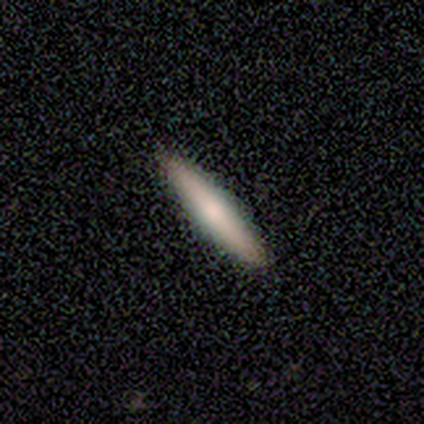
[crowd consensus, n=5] Smooth or featured?
  - smooth: 80% *
  - featured or disk: 20%
  - star or artifact: 0%
How rounded?
  - cigar-shaped: 100% *
  - round: 0%
  - in between: 0%
Merging?
  - none: 100% *
  - minor disturbance: 0%
  - major disturbance: 0%
  - merger: 0%